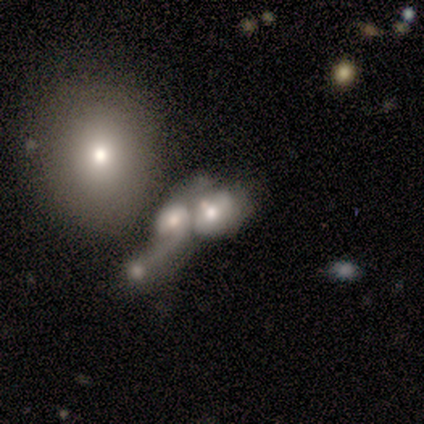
smooth 50%, featured or disk 25%, star or artifact 25%. Down the decision tree: how rounded — in between (100%); merging — merger (100%).